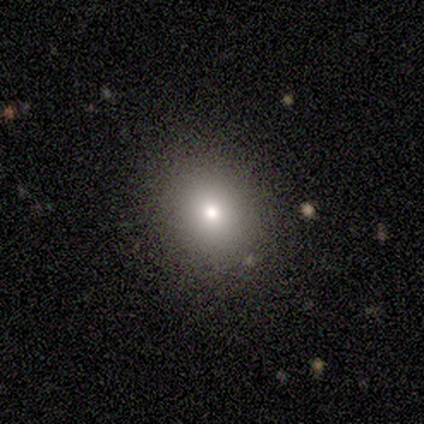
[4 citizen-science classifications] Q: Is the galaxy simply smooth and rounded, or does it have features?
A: smooth — 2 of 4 (50%, tied with star or artifact).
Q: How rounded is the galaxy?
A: round — 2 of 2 (100%).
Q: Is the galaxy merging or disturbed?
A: none — 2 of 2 (100%).